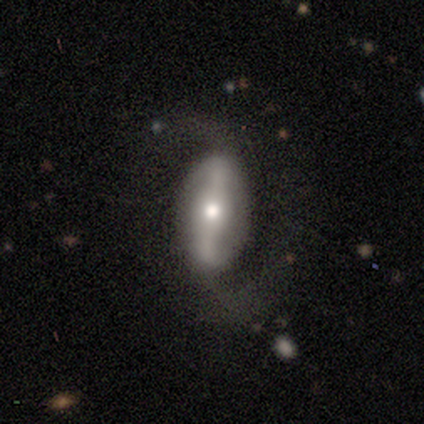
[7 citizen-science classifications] A featured or disk galaxy (86%) with a strong bar (50%), 2 (100%) tight (40%, tied with loose) spiral arms (83%) and a moderate central bulge (50%, tied with small).

Vote fractions:
- Smooth or featured? featured or disk: 86% / smooth: 14% / star or artifact: 0%
- Edge-on disk? no: 100% / yes: 0%
- Bar? strong: 50% / weak: 33% / no: 17%
- Spiral arms? yes: 83% / no: 17%
- Spiral winding? tight: 40% (tied) / loose: 40% (tied) / medium: 20%
- Spiral arm count? 2: 100% / 1: 0% / 3: 0% / 4: 0% / more than 4: 0% / can't tell: 0%
- Bulge size? moderate: 50% (tied) / small: 50% (tied) / dominant: 0% / large: 0% / none: 0%
- Merging? none: 43% (tied) / minor disturbance: 43% (tied) / major disturbance: 14% / merger: 0%